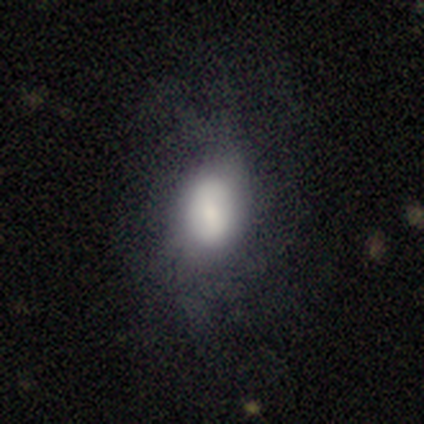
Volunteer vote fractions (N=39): smooth_or_featured: smooth (p=0.54) [alt: featured or disk p=0.36]
how_rounded: in between (p=0.95) [alt: round p=0.05]
merging: none (p=0.49) [alt: minor disturbance p=0.29]